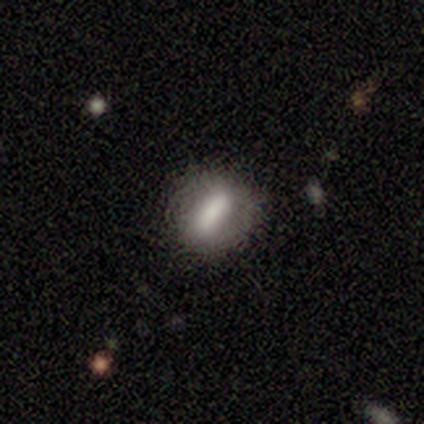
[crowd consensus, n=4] Smooth or featured: smooth — 75% (star or artifact — 25%)
How rounded: cigar-shaped — 67% (in between — 33%)
Merging: minor disturbance — 67% (none — 33%)